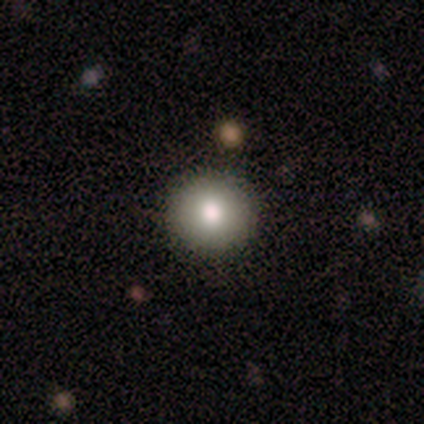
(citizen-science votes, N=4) Q: Smooth or featured?
A: smooth (75%); runner-up: star or artifact (25%)
Q: How rounded?
A: round (100%)
Q: Merging?
A: none (100%)